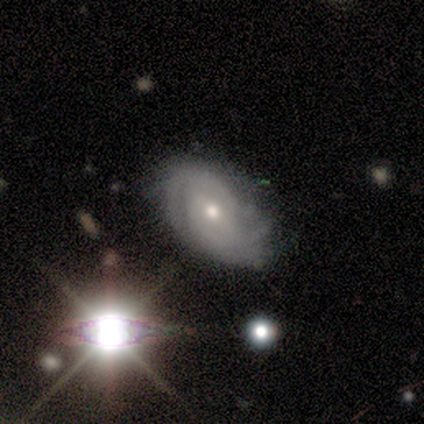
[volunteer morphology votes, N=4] featured or disk 75%, smooth 25%, star or artifact 0%. Down the decision tree: edge-on disk — no (100%); bar — strong (33%, tied with weak and no); spiral arms — yes (100%); spiral arm count — 2 (33%, tied with 3 and can't tell); spiral winding — tight (67%); bulge size — small (67%); merging — minor disturbance (50%).